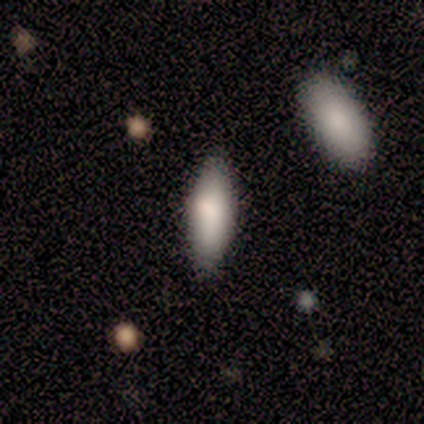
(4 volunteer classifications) Morphology: type=smooth (75%); roundness=in between (67%); merging=none (100%).